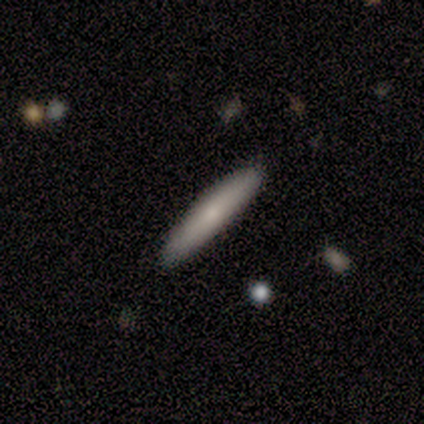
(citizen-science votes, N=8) This appears to be a smooth galaxy with no disk features (62%) that is cigar-shaped (100%). Merging: none (100%).